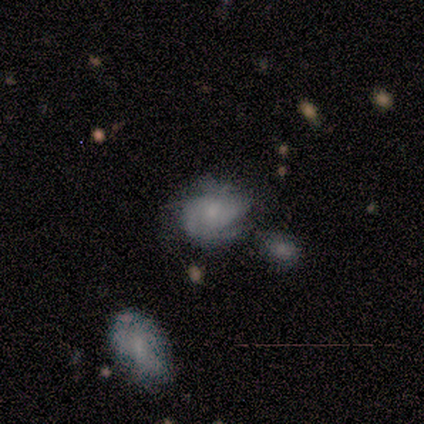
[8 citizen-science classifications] smooth_or_featured: featured or disk (p=0.75) [alt: smooth p=0.25]
disk_edge_on: no (p=1.00)
bar: no (p=1.00)
has_spiral_arms: yes (p=1.00)
spiral_winding: tight (p=0.67) [alt: medium p=0.33]
spiral_arm_count: 2 (p=0.50) [tied with: can't tell p=0.50]
bulge_size: small (p=0.50) [alt: moderate p=0.33]
merging: none (p=0.75) [alt: minor disturbance p=0.12]